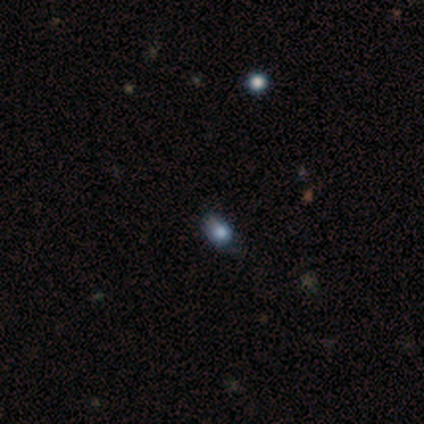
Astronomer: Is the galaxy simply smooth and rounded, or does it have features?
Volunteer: star or artifact — 80%.